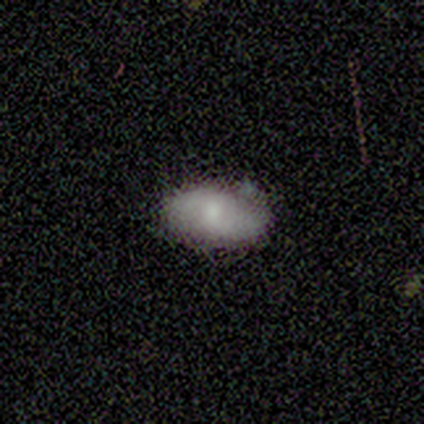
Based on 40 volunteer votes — Smooth or featured? 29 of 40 (72%) said smooth. How rounded? 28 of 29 (97%) said in between. Merging? 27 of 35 (77%) said none.